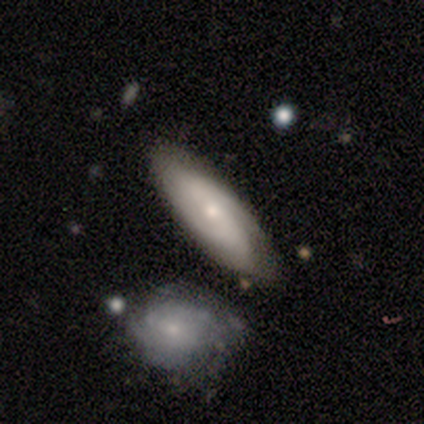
smooth 60%, featured or disk 40%, star or artifact 0%. Down the decision tree: how rounded — in between (100%); merging — none (80%).